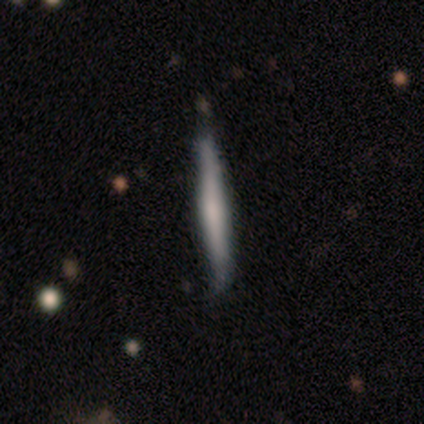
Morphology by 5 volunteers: Q: Smooth or featured?
A: featured or disk (60%); runner-up: smooth (40%)
Q: Edge-on disk?
A: yes (100%)
Q: Edge-on bulge?
A: none (67%); runner-up: rounded (33%)
Q: Merging?
A: minor disturbance (60%); runner-up: none (40%)